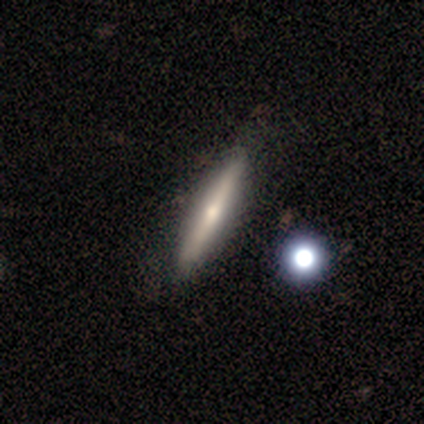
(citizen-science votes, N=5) This is clearly a featured or disk galaxy (100%). It is clearly viewed edge-on (80%). Edge-on bulge: likely rounded (75%). Merging: clearly none (80%).